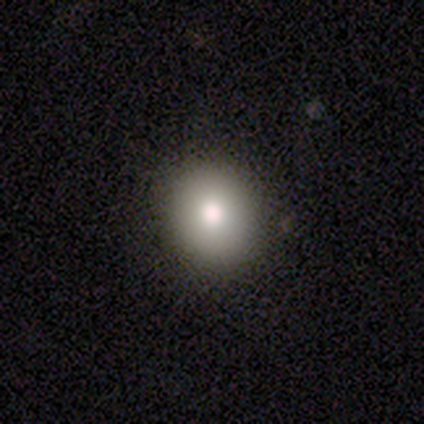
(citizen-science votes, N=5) smooth_or_featured: smooth (p=0.60) [alt: featured or disk p=0.40]
how_rounded: in between (p=0.67) [alt: round p=0.33]
merging: none (p=0.80) [alt: minor disturbance p=0.20]